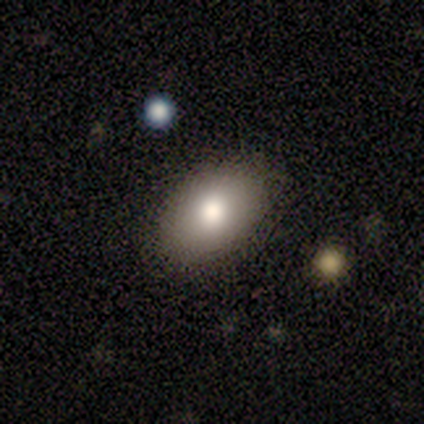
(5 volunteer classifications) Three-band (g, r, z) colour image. It shows a smooth galaxy with no disk features (80%) that is in between round and cigar-shaped (100%). Merging: none (100%).